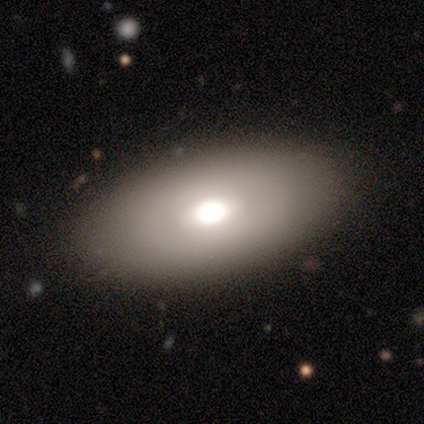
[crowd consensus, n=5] smooth 60%, featured or disk 40%, star or artifact 0%. Down the decision tree: how rounded — in between (100%); merging — none (60%).